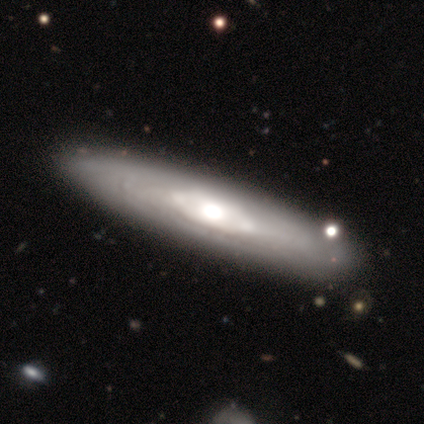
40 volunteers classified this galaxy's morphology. featured or disk 88%, smooth 12%, star or artifact 0%. Down the decision tree: edge-on disk — no (66%); bar — no (83%); spiral arms — yes (70%); spiral arm count — can't tell (100%); spiral winding — tight (81%); bulge size — moderate (78%); merging — none (60%).